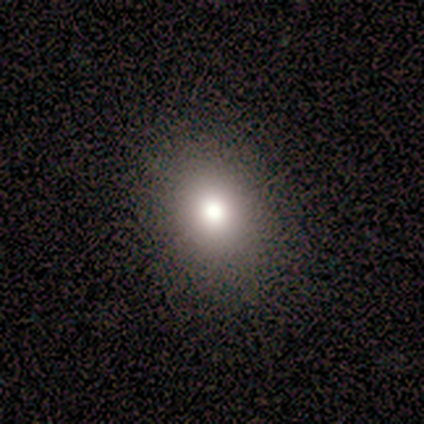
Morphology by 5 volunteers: smooth_or_featured: smooth (p=0.60) [alt: featured or disk p=0.20]
how_rounded: in between (p=1.00)
merging: none (p=1.00)